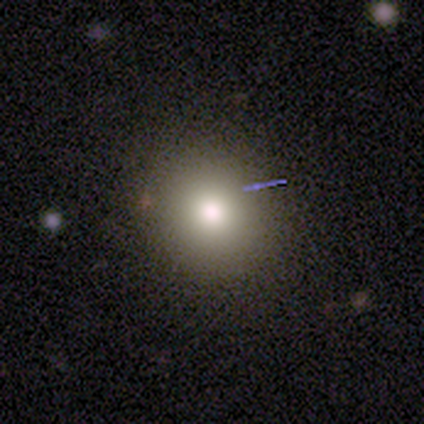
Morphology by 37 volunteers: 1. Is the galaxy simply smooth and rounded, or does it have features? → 70% smooth, 19% star or artifact, 11% featured or disk.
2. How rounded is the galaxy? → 85% round, 15% in between, 0% cigar-shaped.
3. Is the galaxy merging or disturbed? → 77% none, 20% minor disturbance, 3% merger, 0% major disturbance.